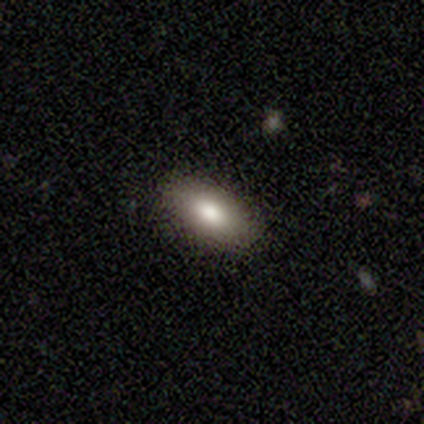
Smooth or featured? 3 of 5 (60%) said smooth. How rounded? 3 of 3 (100%) said in between. Merging? 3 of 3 (100%) said none.